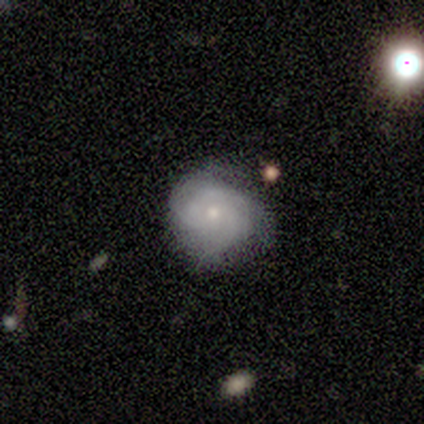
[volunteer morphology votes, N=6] Smooth or featured?
  - featured or disk: 67% *
  - smooth: 33%
  - star or artifact: 0%
Edge-on disk?
  - no: 100% *
  - yes: 0%
Bar?
  - no: 100% *
  - strong: 0%
  - weak: 0%
Spiral arms?
  - yes: 100% *
  - no: 0%
Spiral winding?
  - tight: 75% *
  - medium: 25%
  - loose: 0%
Spiral arm count?
  - 3: 50% * (tied)
  - can't tell: 50% * (tied)
  - 1: 0%
  - 2: 0%
  - 4: 0%
  - more than 4: 0%
Bulge size?
  - small: 75% *
  - moderate: 25%
  - dominant: 0%
  - large: 0%
  - none: 0%
Merging?
  - none: 83% *
  - major disturbance: 17%
  - minor disturbance: 0%
  - merger: 0%